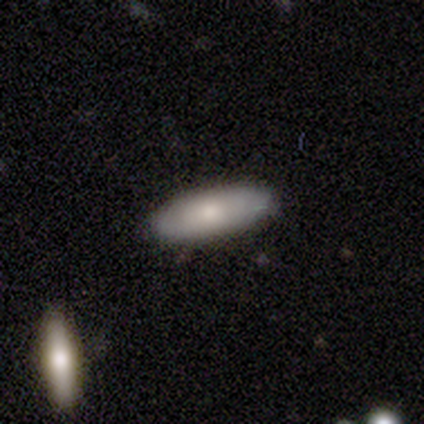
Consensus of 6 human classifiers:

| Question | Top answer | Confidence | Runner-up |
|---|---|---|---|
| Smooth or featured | smooth | 83% | star or artifact (17%) |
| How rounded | in between | 60% | cigar-shaped (40%) |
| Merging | none | 100% | — |